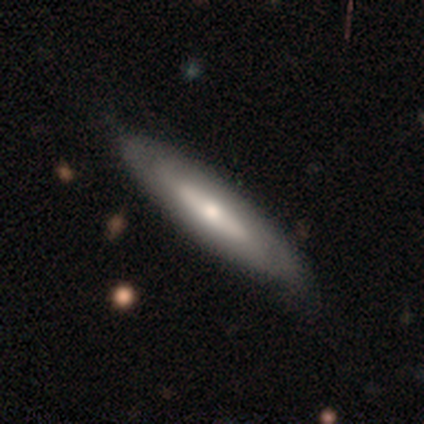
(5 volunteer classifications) smooth_or_featured: featured or disk (p=0.60) [alt: smooth p=0.40]
disk_edge_on: yes (p=0.67) [alt: no p=0.33]
edge_on_bulge: rounded (p=1.00)
merging: none (p=0.80) [alt: minor disturbance p=0.20]